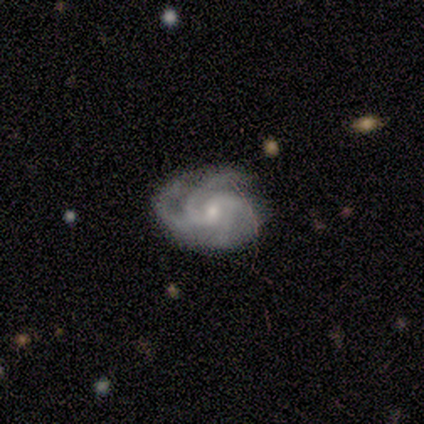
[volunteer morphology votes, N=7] smooth_or_featured: featured or disk (p=1.00)
disk_edge_on: no (p=1.00)
bar: no (p=0.71) [alt: weak p=0.29]
has_spiral_arms: yes (p=1.00)
spiral_winding: medium (p=0.71) [alt: tight p=0.29]
spiral_arm_count: 4 (p=0.71) [alt: 3 p=0.29]
bulge_size: small (p=0.86) [alt: moderate p=0.14]
merging: none (p=0.86) [alt: minor disturbance p=0.14]